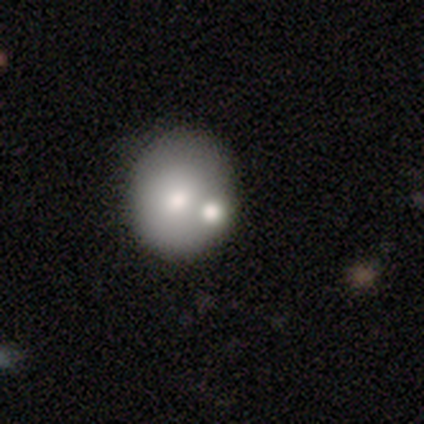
Smooth or featured?
  - smooth: 66% *
  - featured or disk: 27%
  - star or artifact: 7%
How rounded?
  - round: 66% *
  - in between: 34%
  - cigar-shaped: 0%
Merging?
  - none: 61% *
  - merger: 16%
  - minor disturbance: 15%
  - major disturbance: 9%